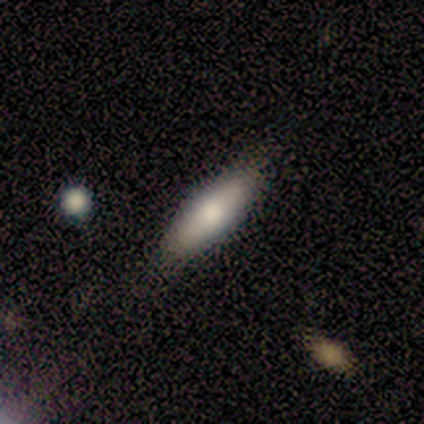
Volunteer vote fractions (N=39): This is likely a smooth galaxy (64%). How rounded: possibly cigar-shaped (56%). Merging: likely none (76%).